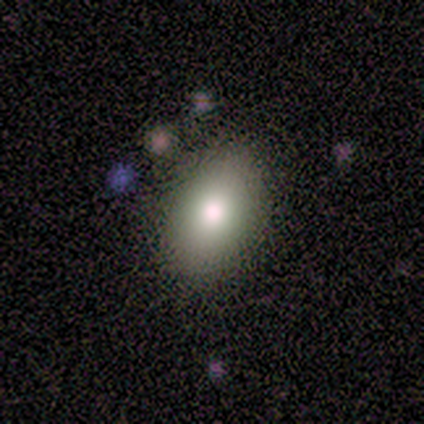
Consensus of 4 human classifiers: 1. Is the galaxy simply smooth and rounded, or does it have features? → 75% smooth, 25% featured or disk, 0% star or artifact.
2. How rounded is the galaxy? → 100% in between, 0% round, 0% cigar-shaped.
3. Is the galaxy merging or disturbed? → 75% none, 25% minor disturbance, 0% major disturbance, 0% merger.